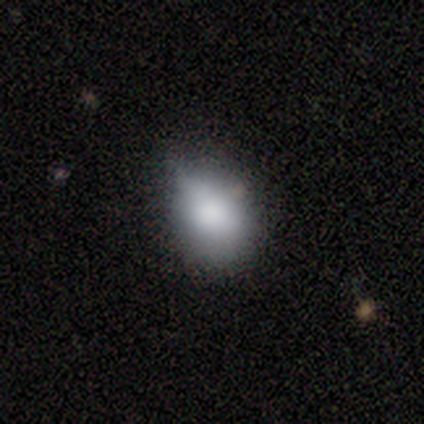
Morphology: type=smooth (80%); roundness=in between (62%); merging=minor disturbance (42%).